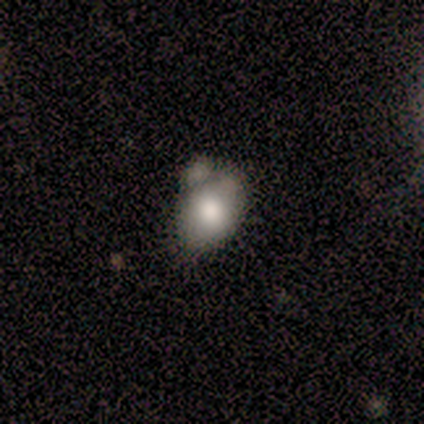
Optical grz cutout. It shows a smooth galaxy with no disk features (100%) that is in between round and cigar-shaped (83%). Merging: none (33%, tied with minor disturbance and merger).